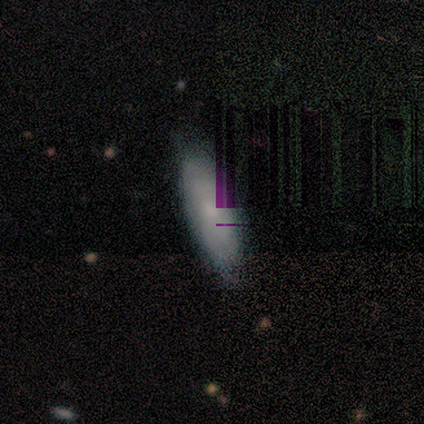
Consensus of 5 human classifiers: This appears to be a smooth galaxy with no disk features (40%, tied with star or artifact) that is in between round and cigar-shaped (100%). Merging: minor disturbance (67%).